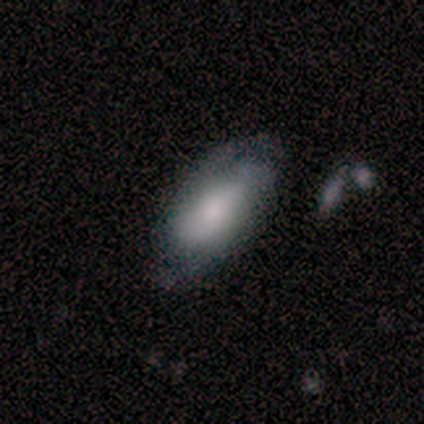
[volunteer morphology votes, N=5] smooth_or_featured: featured or disk (p=0.60) [alt: smooth p=0.40]
disk_edge_on: no (p=1.00)
bar: no (p=1.00)
has_spiral_arms: yes (p=0.67) [alt: no p=0.33]
spiral_winding: medium (p=1.00)
spiral_arm_count: 2 (p=0.50) [tied with: can't tell p=0.50]
bulge_size: small (p=0.67) [alt: large p=0.33]
merging: none (p=0.60) [alt: minor disturbance p=0.40]